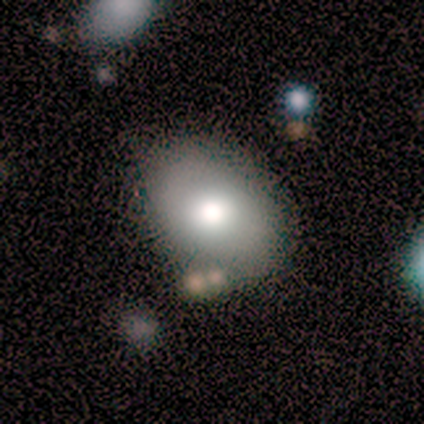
Smooth or featured?
  - smooth: 80% *
  - featured or disk: 20%
  - star or artifact: 0%
How rounded?
  - round: 50% *
  - in between: 25%
  - cigar-shaped: 25%
Merging?
  - none: 60% *
  - minor disturbance: 40%
  - major disturbance: 0%
  - merger: 0%